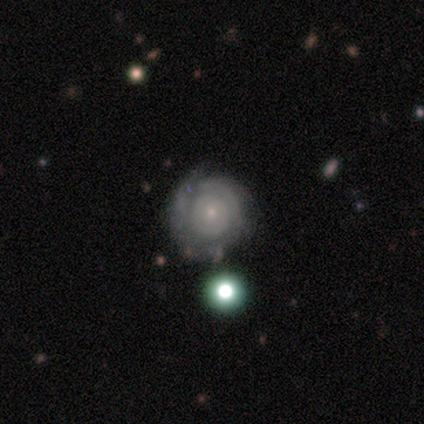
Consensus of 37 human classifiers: Q: Smooth or featured?
A: featured or disk (73%); runner-up: smooth (22%)
Q: Edge-on disk?
A: no (100%)
Q: Bar?
A: no (93%); runner-up: weak (7%)
Q: Spiral arms?
A: yes (78%); runner-up: no (22%)
Q: Spiral winding?
A: tight (95%); runner-up: medium (5%)
Q: Spiral arm count?
A: can't tell (48%); runner-up: 2 (29%)
Q: Bulge size?
A: small (85%); runner-up: moderate (11%)
Q: Merging?
A: none (74%); runner-up: minor disturbance (23%)